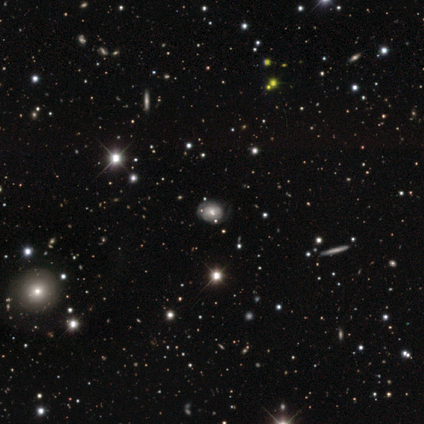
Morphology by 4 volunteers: Smooth or featured? featured or disk (50%)
Edge-on disk? no (100%)
Bar? no (100%)
Spiral arms? yes (100%)
Spiral winding? tight (100%)
Spiral arm count? can't tell (100%)
Bulge size? moderate (50%, tied with small)
Merging? none (67%)